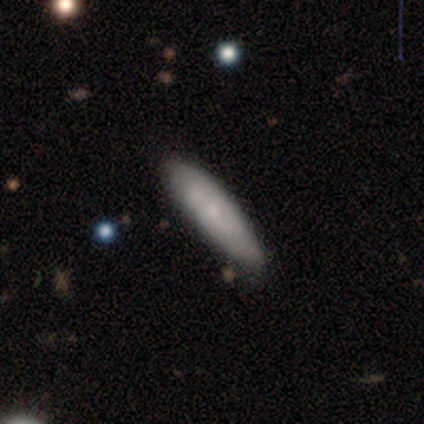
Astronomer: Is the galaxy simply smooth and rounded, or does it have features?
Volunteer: smooth — 75%.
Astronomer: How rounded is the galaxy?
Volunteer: cigar-shaped — 67%.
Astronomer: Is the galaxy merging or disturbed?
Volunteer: none — 75%.